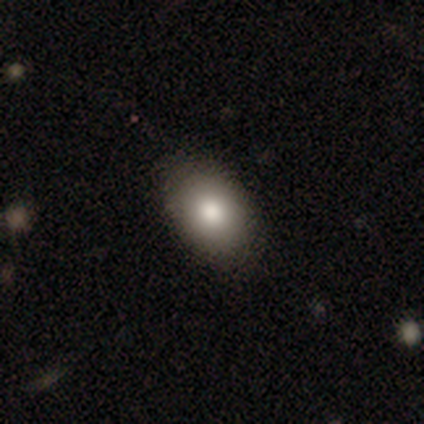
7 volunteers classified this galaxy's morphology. Smooth or featured: smooth — 100%
How rounded: in between — 86% (round — 14%)
Merging: none — 57% (minor disturbance — 29%)